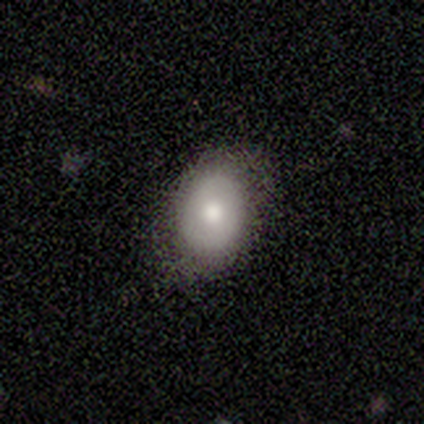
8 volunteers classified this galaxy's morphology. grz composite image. It shows a smooth galaxy with no disk features (75%) that is in between round and cigar-shaped (83%). Merging: none (100%).